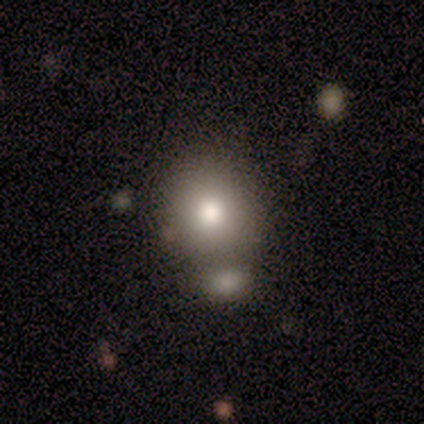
Smooth or featured? 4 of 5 (80%) said smooth. How rounded? 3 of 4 (75%) said round. Merging? 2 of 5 (40%, tied with merger) said none.